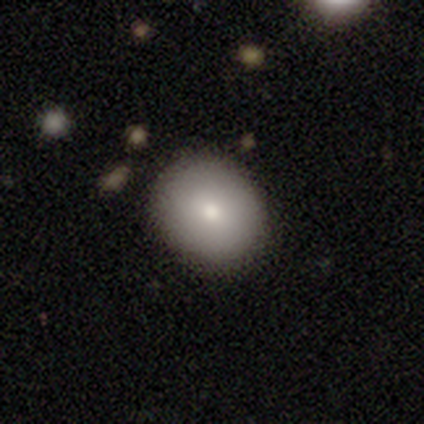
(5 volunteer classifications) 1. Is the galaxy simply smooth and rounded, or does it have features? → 100% smooth, 0% featured or disk, 0% star or artifact.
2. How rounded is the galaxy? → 60% round, 40% in between, 0% cigar-shaped.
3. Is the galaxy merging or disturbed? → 100% none, 0% minor disturbance, 0% major disturbance, 0% merger.